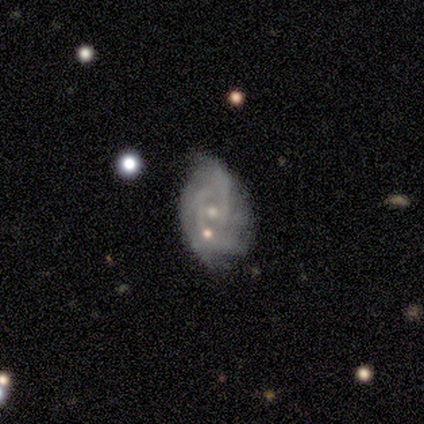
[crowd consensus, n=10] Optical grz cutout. It shows a featured or disk galaxy (80%) with no bar (75%), 2 (71%) tight (57%) spiral arms (88%) and a small central bulge (88%). Merging: none (70%).